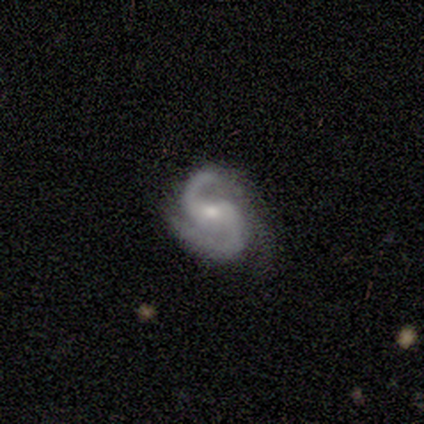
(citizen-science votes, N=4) Volunteers were most divided on "bar": no: 50%, strong: 25%, weak: 25%. More confident: smooth or featured — featured or disk (100%); edge-on disk — no (100%); spiral arms — yes (100%); spiral winding — medium (75%); bulge size — moderate (75%); merging — minor disturbance (75%); spiral arm count — 2 (50%).